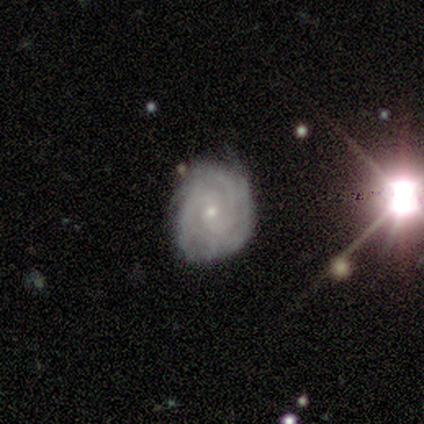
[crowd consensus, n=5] This appears to be a featured or disk galaxy (60%) with no bar (100%), 4 (50%, tied with can't tell) tight (50%, tied with medium) spiral arms (67%) and a small central bulge (100%). Merging: none (100%).